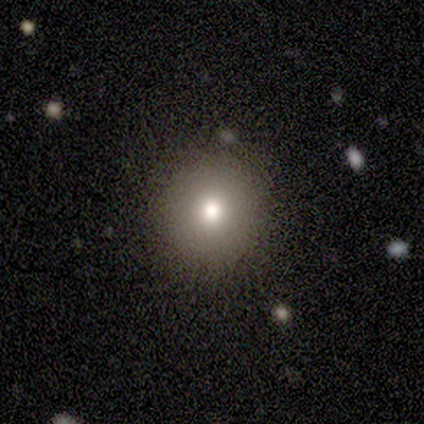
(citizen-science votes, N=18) Volunteers were most divided on "smooth or featured": smooth: 72%, featured or disk: 17%, star or artifact: 11%. More confident: merging — none (94%); how rounded — round (85%).